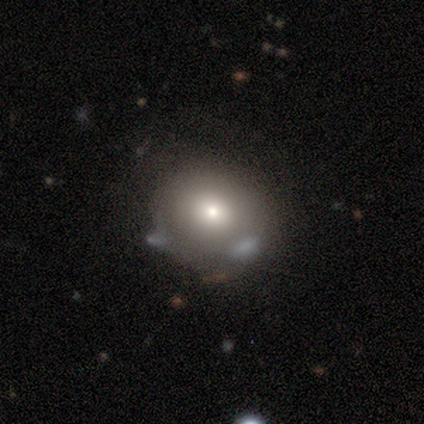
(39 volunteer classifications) A smooth galaxy with no disk features (82%) that is round (84%).

Vote fractions:
- Smooth or featured? smooth: 82% / star or artifact: 10% / featured or disk: 8%
- How rounded? round: 84% / in between: 16% / cigar-shaped: 0%
- Merging? none: 77% / merger: 14% / minor disturbance: 6% / major disturbance: 3%